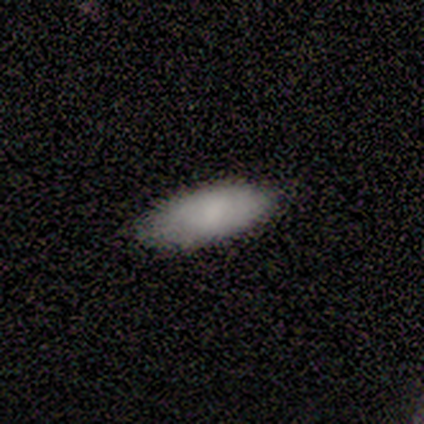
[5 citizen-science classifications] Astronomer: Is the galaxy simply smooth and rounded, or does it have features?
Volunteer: smooth — 100%.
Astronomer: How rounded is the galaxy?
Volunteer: in between — 80%.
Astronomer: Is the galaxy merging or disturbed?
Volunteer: none — 80%.